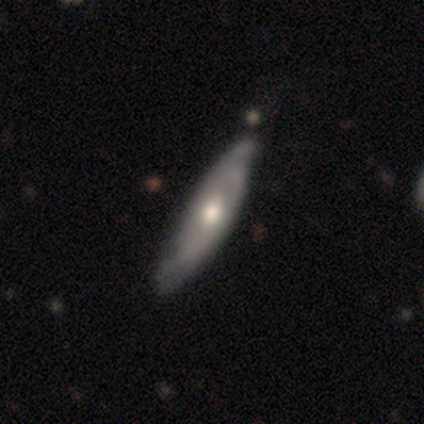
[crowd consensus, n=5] A featured or disk galaxy (100%) with no bar (67%), 1 (50%, tied with 2) tight (100%) spiral arms (67%) and a moderate central bulge (67%). Merging: minor disturbance (80%).